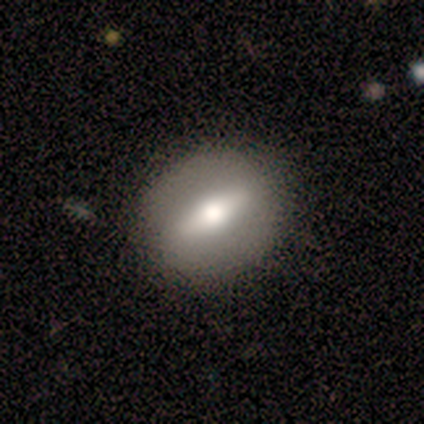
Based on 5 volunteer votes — smooth-or-featured: smooth: 40% (tied) | featured or disk: 40% (tied) | star or artifact: 20%
  how-rounded: round: 50% (tied) | in between: 50% (tied) | cigar-shaped: 0%
  merging: none: 100% | minor disturbance: 0% | major disturbance: 0% | merger: 0%